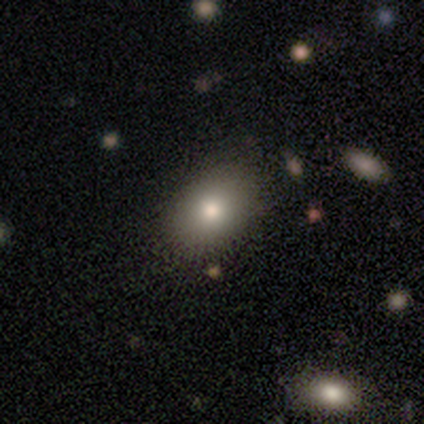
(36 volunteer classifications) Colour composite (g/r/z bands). It shows a smooth galaxy with no disk features (64%) that is in between round and cigar-shaped (83%). Merging: none (81%).